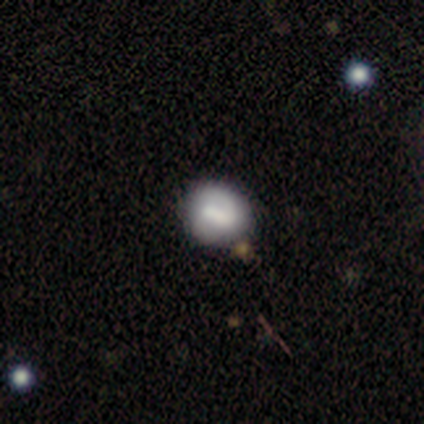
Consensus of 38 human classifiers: Smooth or featured? smooth (50%)
How rounded? round (89%)
Merging? none (86%)